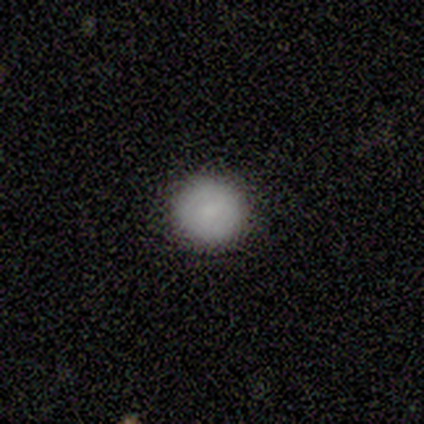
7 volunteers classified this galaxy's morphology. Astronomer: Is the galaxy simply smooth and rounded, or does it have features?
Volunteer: smooth — 86%.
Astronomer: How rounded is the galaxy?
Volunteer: round — 100%.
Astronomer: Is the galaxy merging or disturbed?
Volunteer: none — 100%.